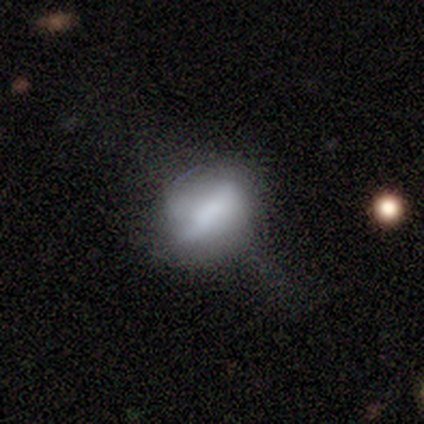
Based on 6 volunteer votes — A smooth galaxy with no disk features (67%) that is in between round and cigar-shaped (75%).

Vote fractions:
- Smooth or featured? smooth: 67% / featured or disk: 33% / star or artifact: 0%
- How rounded? in between: 75% / round: 25% / cigar-shaped: 0%
- Merging? minor disturbance: 50% / none: 33% / major disturbance: 17% / merger: 0%